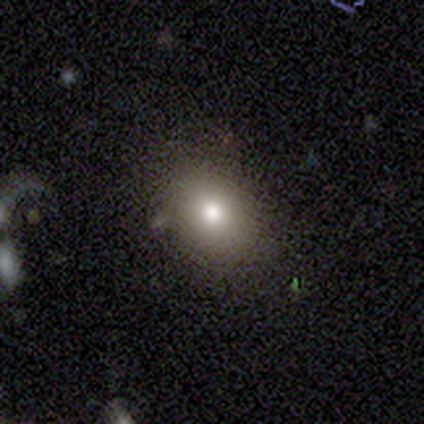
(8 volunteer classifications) Q: Smooth or featured?
A: smooth (75%); runner-up: featured or disk (12%)
Q: How rounded?
A: round (67%); runner-up: in between (33%)
Q: Merging?
A: none (86%); runner-up: minor disturbance (14%)